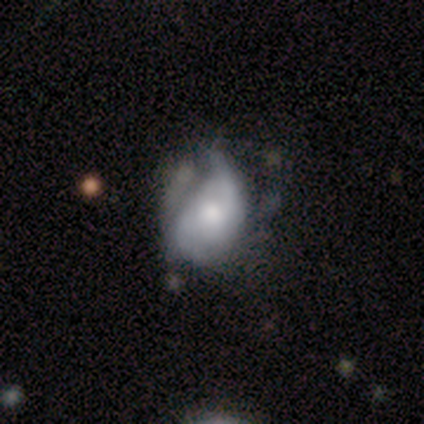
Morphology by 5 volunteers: smooth_or_featured: smooth (p=0.80) [alt: featured or disk p=0.20]
how_rounded: round (p=0.50) [tied with: in between p=0.50]
merging: minor disturbance (p=0.60) [alt: none p=0.20]